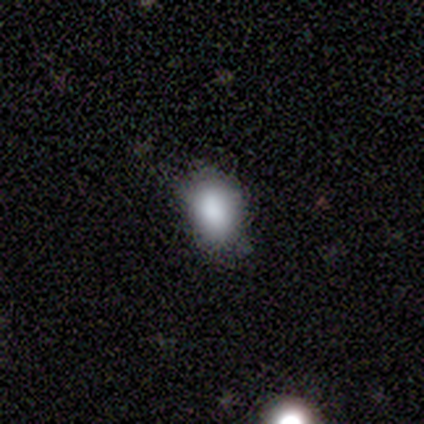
Overall: smooth (100%). How rounded: in between (100%). Merging: none (100%).